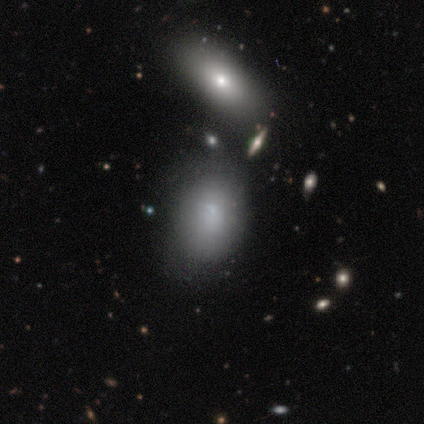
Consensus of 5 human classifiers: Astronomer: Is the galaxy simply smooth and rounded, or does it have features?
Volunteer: smooth — 40%, tied with star or artifact at 40%.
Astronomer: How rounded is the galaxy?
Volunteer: in between — 100%.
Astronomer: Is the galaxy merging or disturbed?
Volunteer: none — 33%, tied with minor disturbance and merger at 33%.